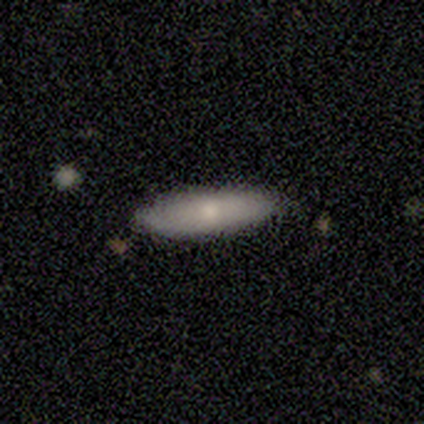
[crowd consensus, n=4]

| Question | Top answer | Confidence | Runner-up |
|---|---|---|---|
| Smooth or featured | smooth | 50% | featured or disk (25%) |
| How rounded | in between | 50% | tied: cigar-shaped (50%) |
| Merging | none | 100% | — |